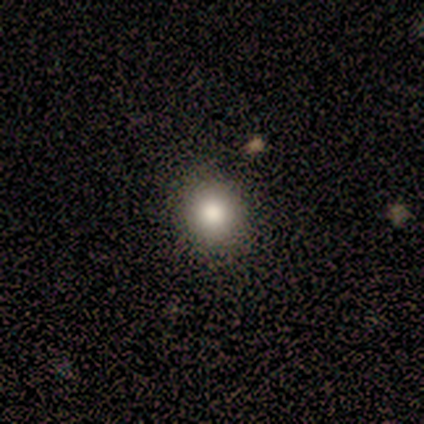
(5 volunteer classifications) Overall: smooth (100%). How rounded: round (80%). Merging: none (100%).